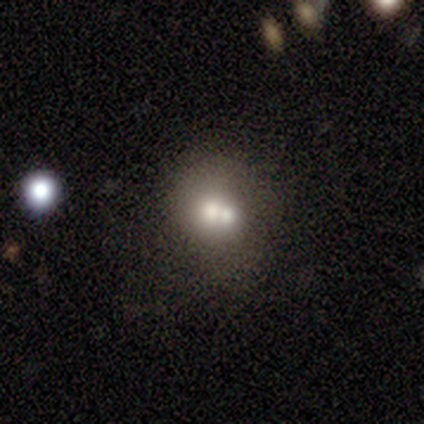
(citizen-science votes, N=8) Smooth or featured? smooth (50%)
How rounded? round (50%, tied with in between)
Merging? none (43%, tied with merger)